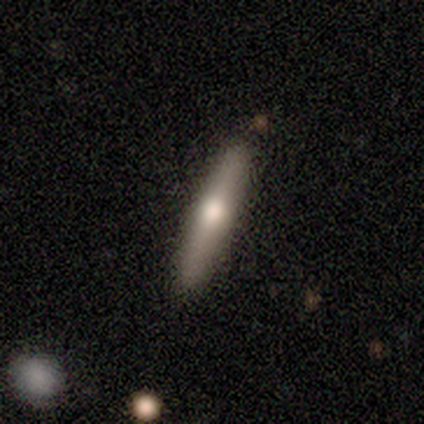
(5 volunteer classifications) This appears to be a smooth galaxy with no disk features (80%) that is cigar-shaped (100%). Merging: none (80%).